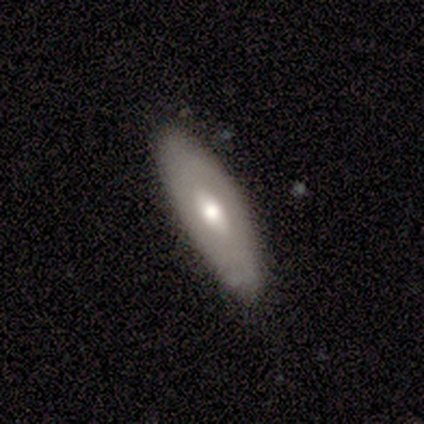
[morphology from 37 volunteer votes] Q: Smooth or featured?
A: smooth (49%); tied with: featured or disk (49%)
Q: How rounded?
A: in between (78%); runner-up: cigar-shaped (22%)
Q: Merging?
A: none (75%); runner-up: minor disturbance (25%)